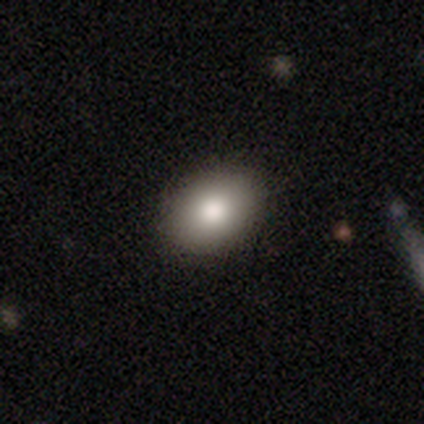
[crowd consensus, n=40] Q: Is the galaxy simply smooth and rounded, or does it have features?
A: smooth — 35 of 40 (88%).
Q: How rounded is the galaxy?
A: in between — 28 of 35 (80%).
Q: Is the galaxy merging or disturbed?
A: none — 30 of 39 (77%).